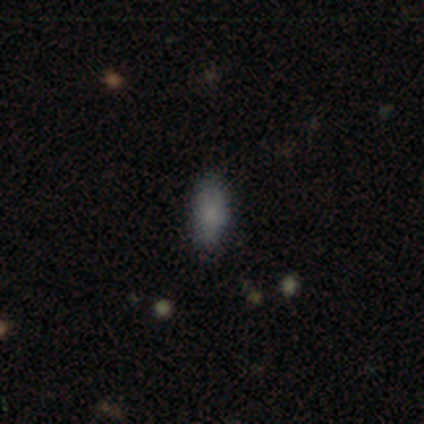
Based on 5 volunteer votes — Volunteers were most divided on "merging": none: 60%, minor disturbance: 20%, major disturbance: 20%, merger: 0%. More confident: how rounded — in between (100%); smooth or featured — smooth (80%).